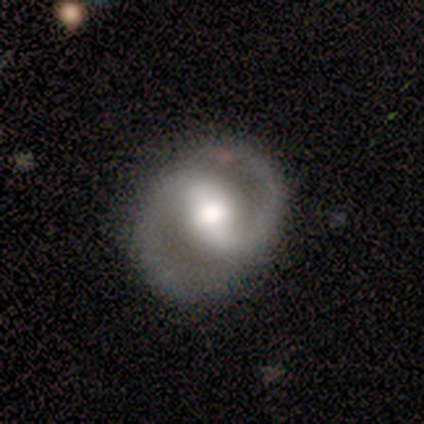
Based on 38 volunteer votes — Smooth or featured: featured or disk — 82% (smooth — 16%)
Edge-on disk: no — 100%
Bar: strong — 48% (weak — 42%)
Spiral arms: yes — 84% (no — 16%)
Spiral winding: medium — 73% (tight — 15%)
Spiral arm count: 2 — 96% (1 — 4%)
Bulge size: moderate — 48% (large — 39%)
Merging: none — 81% (minor disturbance — 16%)